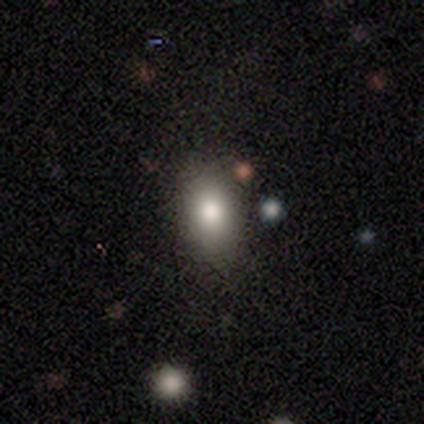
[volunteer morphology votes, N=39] This is likely a smooth galaxy (72%). How rounded: likely in between (68%). Merging: clearly none (88%).